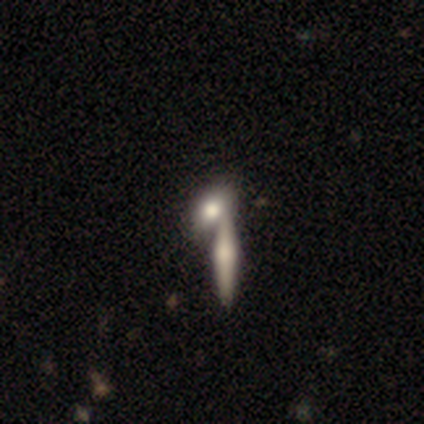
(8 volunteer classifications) Volunteers were most divided on "merging" (2-way tie): none: 43%, merger: 43%, minor disturbance: 14%, major disturbance: 0%. More confident: how rounded — in between (83%); smooth or featured — smooth (75%).